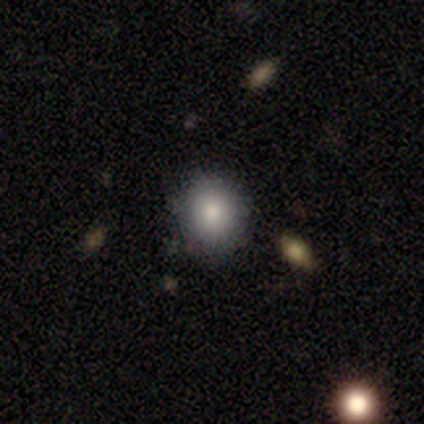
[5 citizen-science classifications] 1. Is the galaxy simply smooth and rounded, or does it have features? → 100% smooth, 0% featured or disk, 0% star or artifact.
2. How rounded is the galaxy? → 80% round, 20% in between, 0% cigar-shaped.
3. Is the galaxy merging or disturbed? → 100% none, 0% minor disturbance, 0% major disturbance, 0% merger.